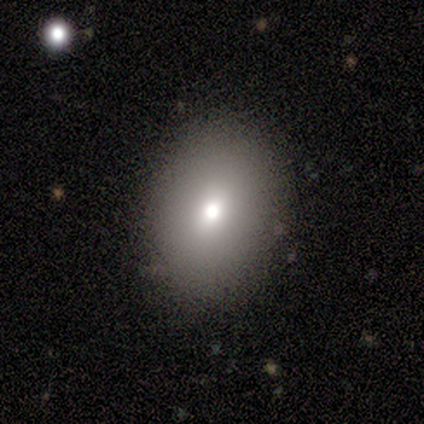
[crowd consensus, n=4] Overall: smooth (100%). How rounded: in between (100%). Merging: none (50%, tied with minor disturbance).